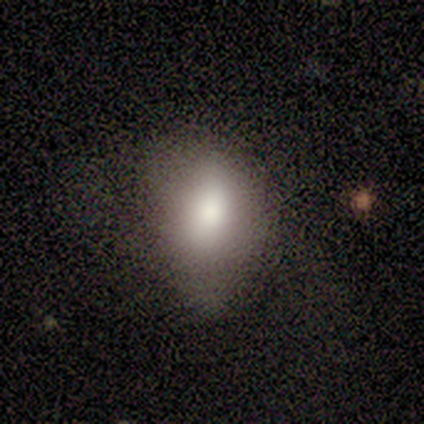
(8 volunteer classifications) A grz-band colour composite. It shows a smooth galaxy with no disk features (100%) that is in between round and cigar-shaped (88%). Merging: none (50%).